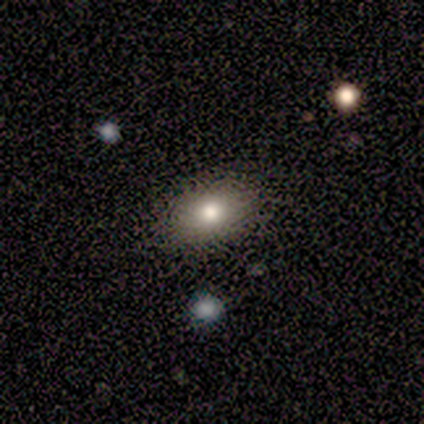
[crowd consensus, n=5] Smooth or featured? smooth (60%)
How rounded? in between (100%)
Merging? none (75%)